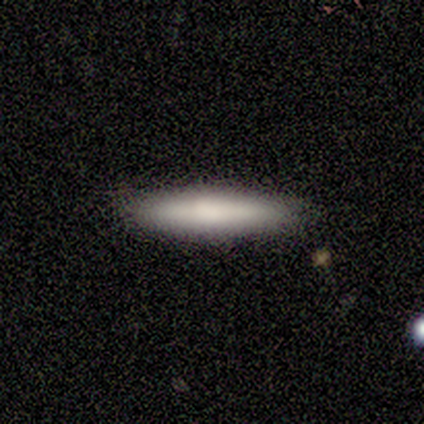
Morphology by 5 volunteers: Smooth or featured? 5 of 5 (100%) said smooth. How rounded? 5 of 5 (100%) said cigar-shaped. Merging? 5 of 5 (100%) said none.